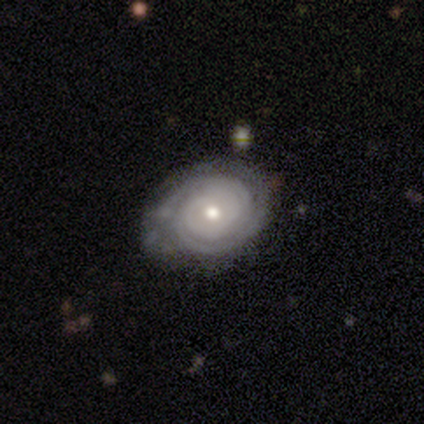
smooth_or_featured: featured or disk (p=1.00)
disk_edge_on: no (p=0.80) [alt: yes p=0.20]
bar: no (p=1.00)
has_spiral_arms: yes (p=1.00)
spiral_winding: tight (p=1.00)
spiral_arm_count: 2 (p=0.75) [alt: 3 p=0.25]
bulge_size: moderate (p=0.75) [alt: small p=0.25]
merging: none (p=0.80) [alt: major disturbance p=0.20]